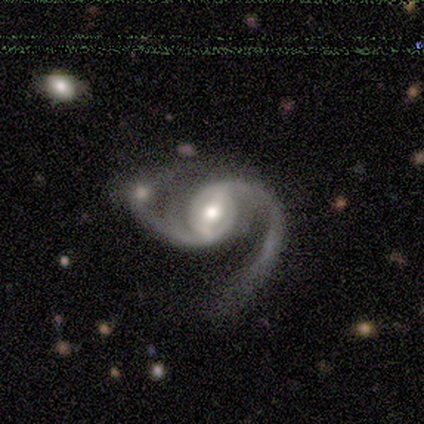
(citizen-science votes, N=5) This appears to be a featured or disk galaxy (100%) with a weak bar (50%), 2 (100%) medium (50%, tied with loose) spiral arms (100%) and a moderate central bulge (100%). Merging: none (40%).